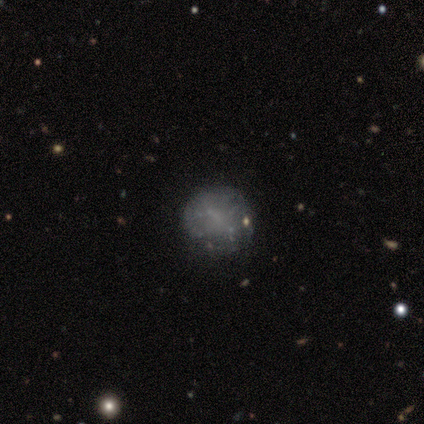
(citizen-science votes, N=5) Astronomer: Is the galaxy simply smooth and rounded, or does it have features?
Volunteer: smooth — 60% (runner-up: featured or disk, 40%).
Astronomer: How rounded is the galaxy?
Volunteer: in between — 67%.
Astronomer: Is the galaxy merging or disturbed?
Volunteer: none — 80%.